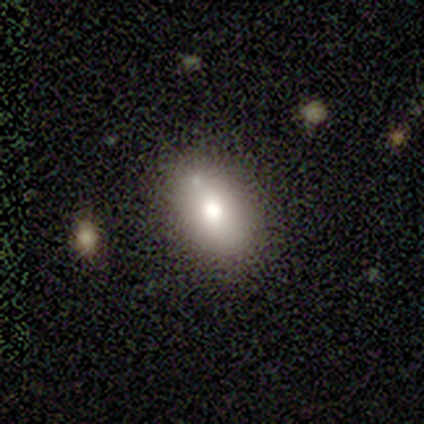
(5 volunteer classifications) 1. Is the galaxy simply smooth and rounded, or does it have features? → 100% smooth, 0% featured or disk, 0% star or artifact.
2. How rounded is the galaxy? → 100% in between, 0% round, 0% cigar-shaped.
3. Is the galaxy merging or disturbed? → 80% none, 20% merger, 0% minor disturbance, 0% major disturbance.